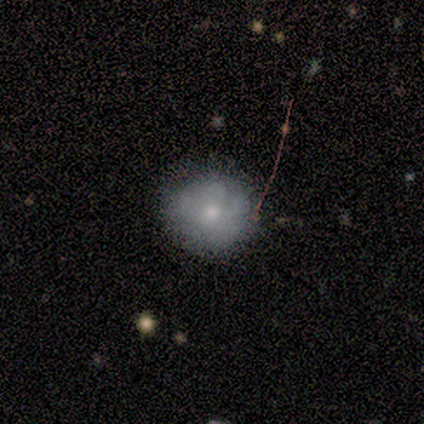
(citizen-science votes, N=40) Q: Smooth or featured?
A: smooth (62%); runner-up: featured or disk (25%)
Q: How rounded?
A: round (96%); runner-up: in between (4%)
Q: Merging?
A: none (80%); runner-up: minor disturbance (20%)